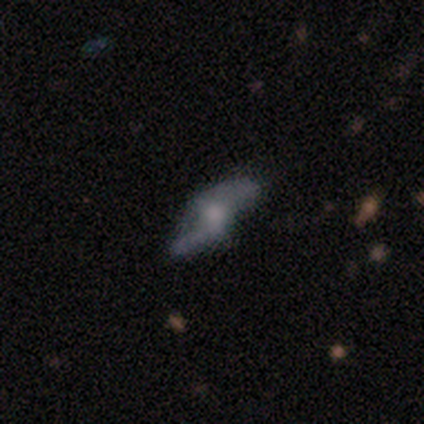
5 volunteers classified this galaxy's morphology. Q: Smooth or featured?
A: featured or disk (100%)
Q: Edge-on disk?
A: no (60%); runner-up: yes (40%)
Q: Bar?
A: weak (67%); runner-up: no (33%)
Q: Spiral arms?
A: yes (67%); runner-up: no (33%)
Q: Spiral winding?
A: tight (50%); tied with: loose (50%)
Q: Spiral arm count?
A: 2 (50%); tied with: can't tell (50%)
Q: Bulge size?
A: large (67%); runner-up: small (33%)
Q: Merging?
A: none (100%)